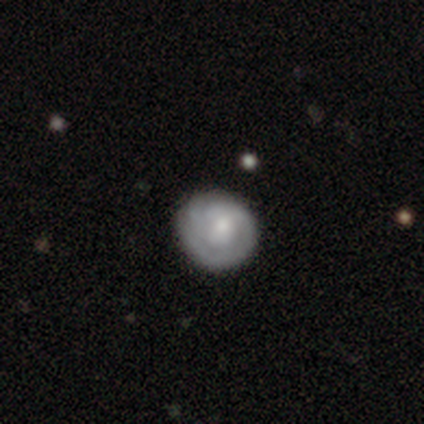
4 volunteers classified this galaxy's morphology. Smooth or featured? smooth (75%)
How rounded? round (67%)
Merging? none (75%)